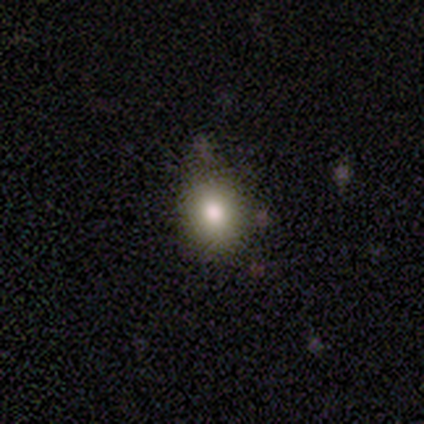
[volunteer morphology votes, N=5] smooth 60%, featured or disk 40%, star or artifact 0%. Down the decision tree: how rounded — round (100%); merging — none (80%).